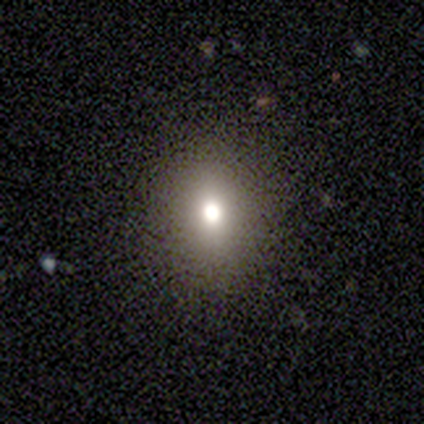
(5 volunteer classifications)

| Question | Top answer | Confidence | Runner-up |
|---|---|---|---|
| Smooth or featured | smooth | 80% | featured or disk (20%) |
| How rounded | round | 100% | — |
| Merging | none | 100% | — |